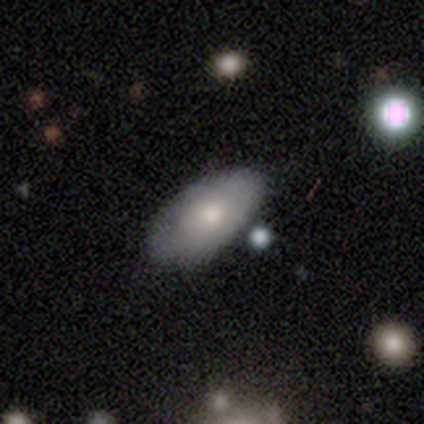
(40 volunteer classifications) Smooth or featured? smooth (72%)
How rounded? in between (97%)
Merging? none (70%)